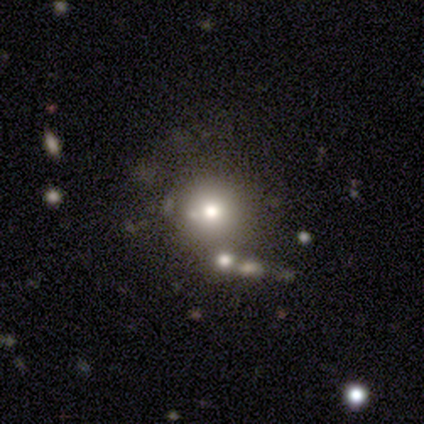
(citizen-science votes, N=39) Morphology: type=smooth (59%); roundness=round (91%); merging=none (58%).